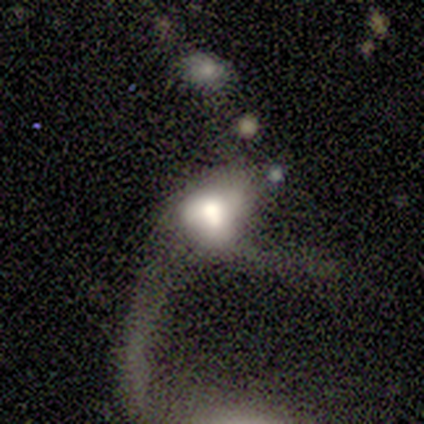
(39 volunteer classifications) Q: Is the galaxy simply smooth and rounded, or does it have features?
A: featured or disk — 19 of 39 (49%).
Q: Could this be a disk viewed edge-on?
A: no — 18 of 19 (95%).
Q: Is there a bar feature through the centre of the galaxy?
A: no — 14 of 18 (78%).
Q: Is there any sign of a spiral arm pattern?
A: no — 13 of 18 (72%).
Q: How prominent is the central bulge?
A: large — 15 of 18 (83%).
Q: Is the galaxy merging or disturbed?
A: major disturbance — 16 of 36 (44%).